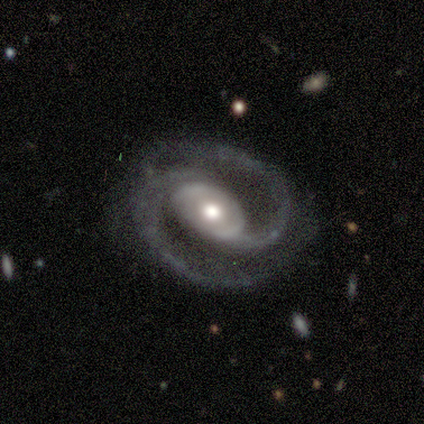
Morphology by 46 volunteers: This appears to be a featured or disk galaxy (93%) with no bar (58%), 2 (98%) medium (52%) spiral arms (98%) and a moderate central bulge (67%). Merging: none (73%).